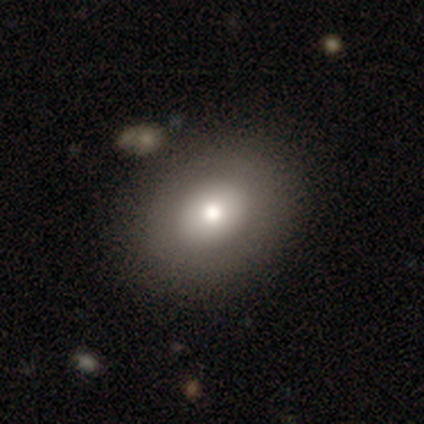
A smooth galaxy with no disk features (76%) that is in between round and cigar-shaped (68%).

Vote fractions:
- Smooth or featured? smooth: 76% / featured or disk: 24% / star or artifact: 0%
- How rounded? in between: 68% / round: 32% / cigar-shaped: 0%
- Merging? none: 92% / minor disturbance: 8% / major disturbance: 0% / merger: 0%